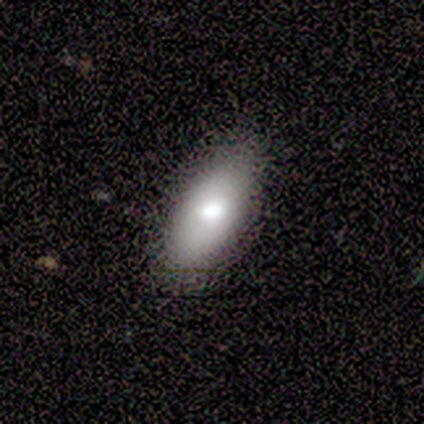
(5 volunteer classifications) Smooth or featured? 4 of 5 (80%) said smooth. How rounded? 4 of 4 (100%) said in between. Merging? 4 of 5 (80%) said none.